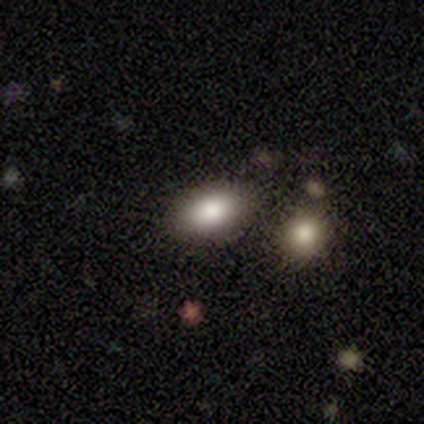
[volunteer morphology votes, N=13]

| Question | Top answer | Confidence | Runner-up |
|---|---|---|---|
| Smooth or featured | smooth | 85% | featured or disk (15%) |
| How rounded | in between | 82% | round (18%) |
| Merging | none | 85% | minor disturbance (8%) |